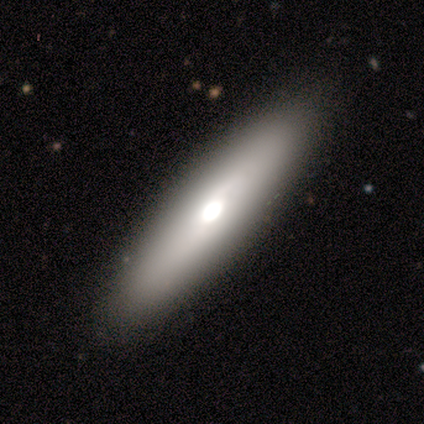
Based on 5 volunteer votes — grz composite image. It shows a featured or disk galaxy (60%) with no bar (100%), no spiral arms (100%) and a large central bulge (100%). Merging: none (80%).